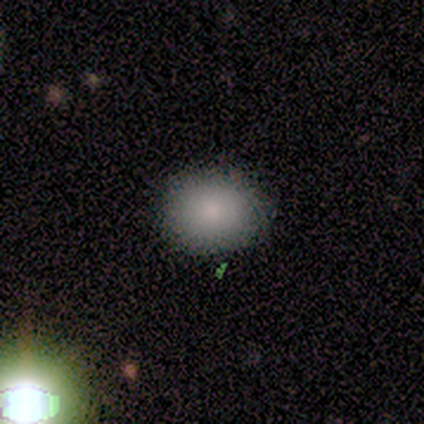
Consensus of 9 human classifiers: Overall: smooth (100%). How rounded: in between (56%; round 44%). Merging: none (100%).